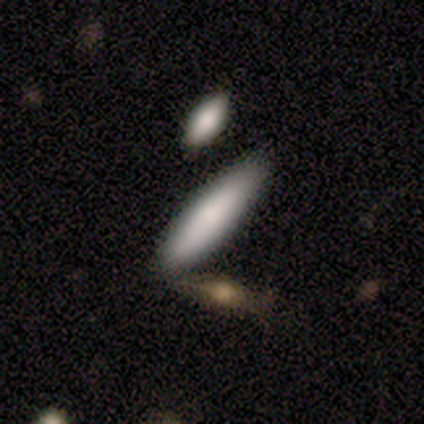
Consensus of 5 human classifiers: smooth_or_featured: smooth (p=1.00)
how_rounded: cigar-shaped (p=1.00)
merging: none (p=1.00)